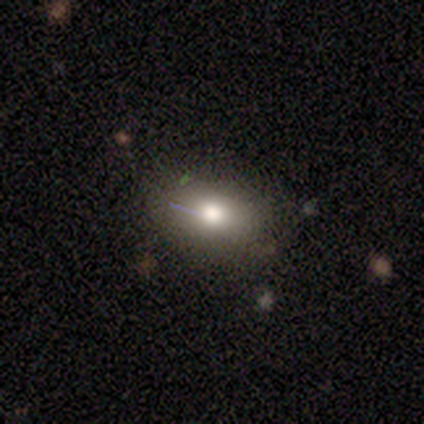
Morphology: type=smooth (80%); roundness=in between (75%); merging=none (75%).